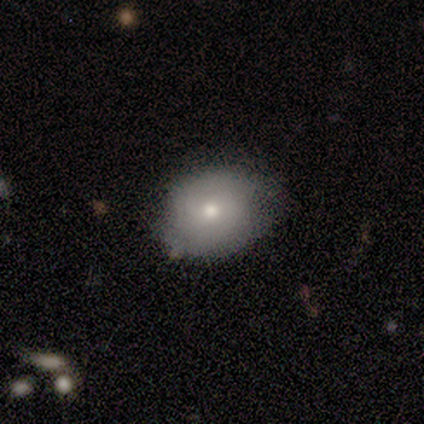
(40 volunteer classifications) Morphology: type=smooth (52%); roundness=round (71%); merging=none (71%).